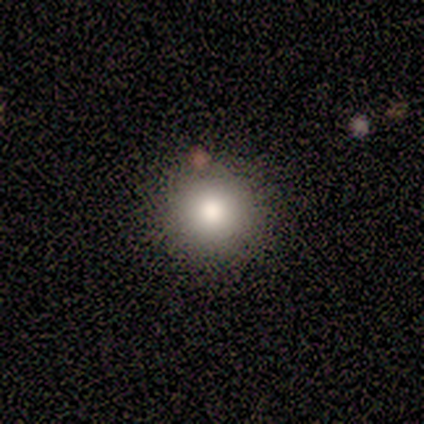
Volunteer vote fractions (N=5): smooth_or_featured: smooth (p=1.00)
how_rounded: round (p=0.80) [alt: in between p=0.20]
merging: none (p=1.00)